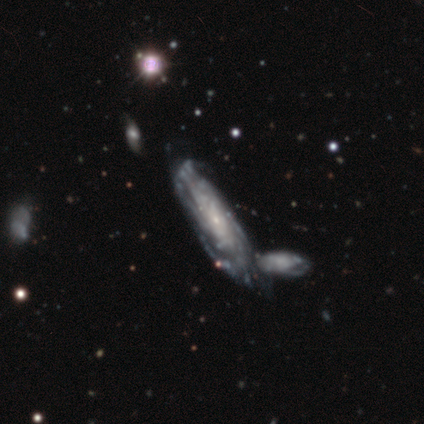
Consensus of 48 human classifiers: Overall: featured or disk (88%). Edge-on disk: no (81%). Bar: no (79%). Spiral arms: yes (94%). Spiral arm count: can't tell (62%). Spiral winding: tight (69%). Bulge size: small (88%). Merging: none (50%; merger 33%).